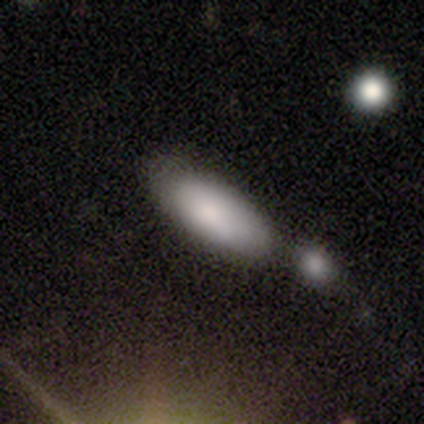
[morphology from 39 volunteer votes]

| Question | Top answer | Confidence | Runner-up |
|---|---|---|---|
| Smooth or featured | smooth | 85% | star or artifact (10%) |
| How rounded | in between | 70% | cigar-shaped (27%) |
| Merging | none | 43% | merger (37%) |